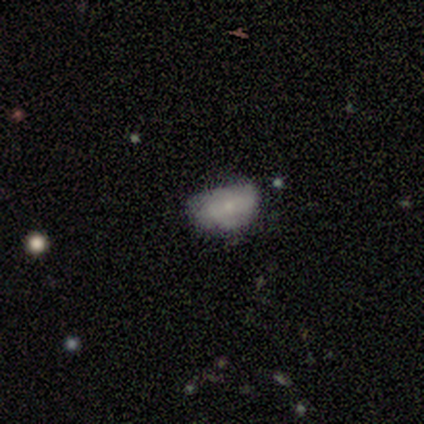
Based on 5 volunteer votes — smooth 80%, star or artifact 20%, featured or disk 0%. Down the decision tree: how rounded — in between (100%); merging — none (50%, tied with minor disturbance).